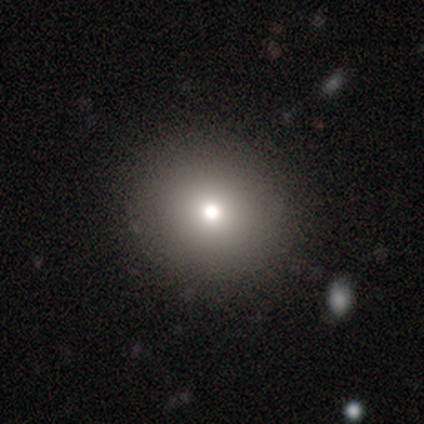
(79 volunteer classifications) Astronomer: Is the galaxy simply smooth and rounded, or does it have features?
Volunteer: smooth — 82%.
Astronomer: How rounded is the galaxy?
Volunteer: round — 91%.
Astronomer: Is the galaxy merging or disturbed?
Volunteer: none — 47%.